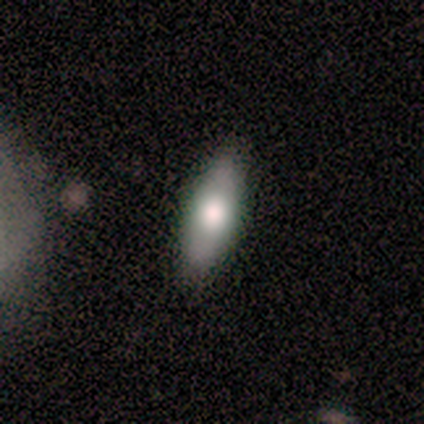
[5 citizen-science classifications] Smooth or featured?
  - smooth: 60% *
  - featured or disk: 40%
  - star or artifact: 0%
How rounded?
  - in between: 67% *
  - cigar-shaped: 33%
  - round: 0%
Merging?
  - none: 100% *
  - minor disturbance: 0%
  - major disturbance: 0%
  - merger: 0%